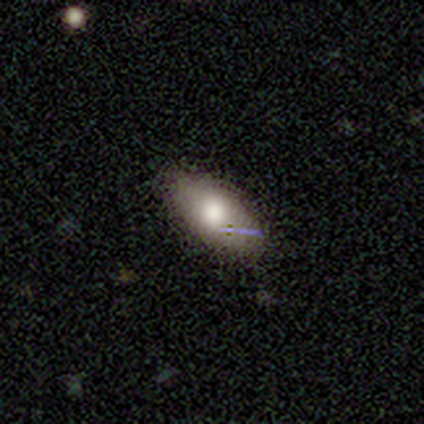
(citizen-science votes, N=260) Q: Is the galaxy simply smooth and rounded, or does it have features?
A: smooth — 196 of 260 (75%).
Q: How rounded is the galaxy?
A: in between — 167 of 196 (85%).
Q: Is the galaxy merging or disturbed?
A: none — 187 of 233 (80%).